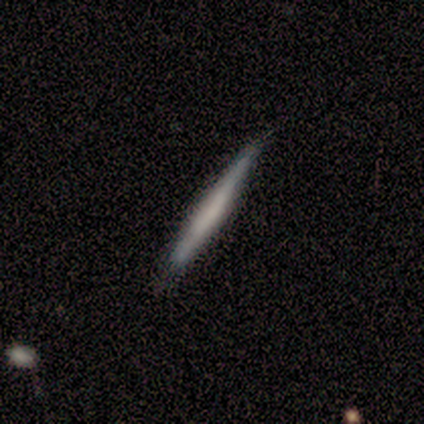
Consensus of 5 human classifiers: This is clearly a featured or disk galaxy (80%). It is likely viewed edge-on (75%). Edge-on bulge: likely none (67%). Merging: likely none (60%).